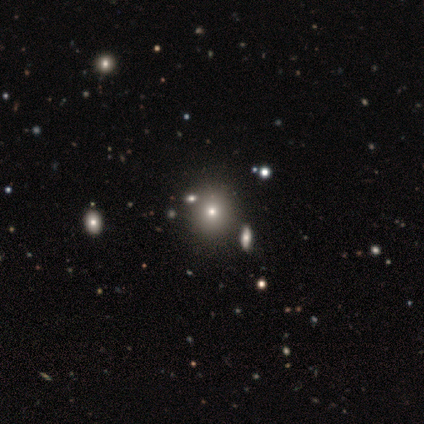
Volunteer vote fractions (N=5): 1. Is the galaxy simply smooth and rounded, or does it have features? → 80% smooth, 20% star or artifact, 0% featured or disk.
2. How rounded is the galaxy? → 75% round, 25% in between, 0% cigar-shaped.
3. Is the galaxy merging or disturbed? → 75% none, 25% minor disturbance, 0% major disturbance, 0% merger.